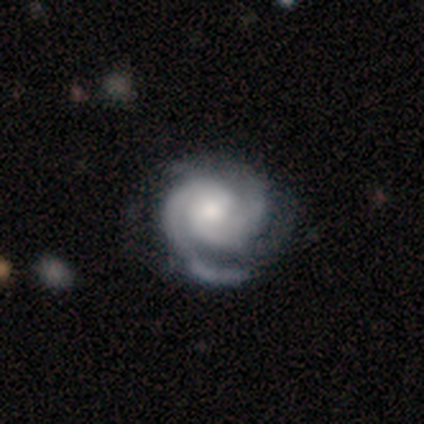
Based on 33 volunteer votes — This is likely a featured or disk galaxy (79%). It is clearly not viewed edge-on (92%). Bar: possibly no (58%). Spiral arm pattern: clearly yes (100%). Spiral arm count: possibly 2 (54%). Spiral winding: likely tight (67%). Central bulge: possibly moderate (58%). Merging: possibly none (53%).